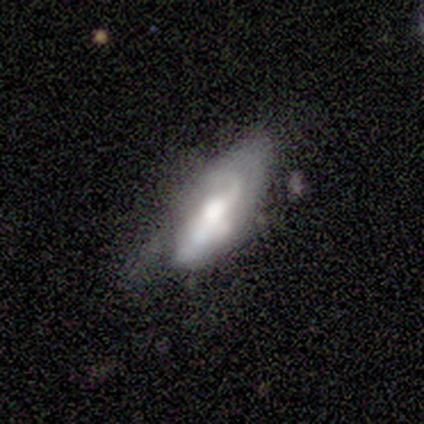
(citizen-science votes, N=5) A featured or disk galaxy (80%) with no bar (100%), 1 (50%, tied with can't tell) medium (50%, tied with loose) spiral arms (67%) and a large central bulge (67%).

Vote fractions:
- Smooth or featured? featured or disk: 80% / smooth: 20% / star or artifact: 0%
- Edge-on disk? no: 75% / yes: 25%
- Bar? no: 100% / strong: 0% / weak: 0%
- Spiral arms? yes: 67% / no: 33%
- Spiral winding? medium: 50% (tied) / loose: 50% (tied) / tight: 0%
- Spiral arm count? 1: 50% (tied) / can't tell: 50% (tied) / 2: 0% / 3: 0% / 4: 0% / more than 4: 0%
- Bulge size? large: 67% / moderate: 33% / dominant: 0% / small: 0% / none: 0%
- Merging? minor disturbance: 60% / major disturbance: 40% / none: 0% / merger: 0%